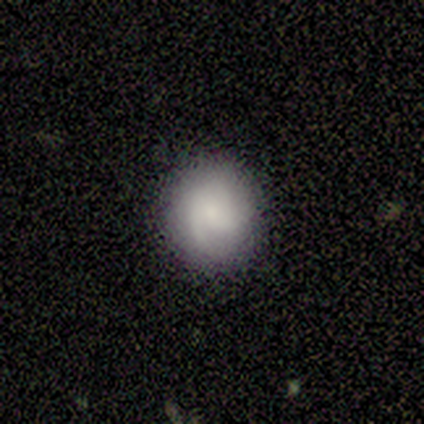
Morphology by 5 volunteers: Smooth or featured: smooth — 60% (featured or disk — 40%)
How rounded: round — 67% (in between — 33%)
Merging: none — 80% (minor disturbance — 20%)